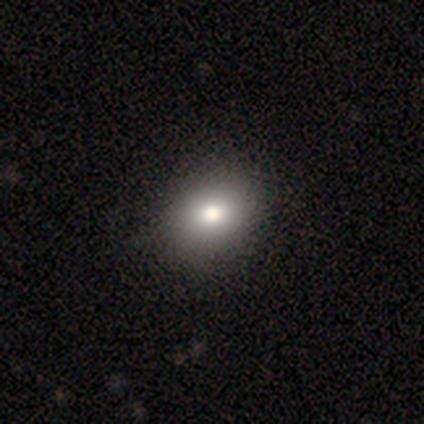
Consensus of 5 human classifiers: smooth 100%, featured or disk 0%, star or artifact 0%. Down the decision tree: how rounded — in between (60%); merging — none (60%).